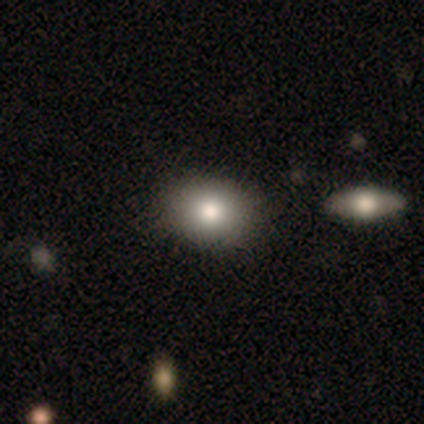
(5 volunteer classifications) Smooth or featured?
  - smooth: 60% *
  - featured or disk: 40%
  - star or artifact: 0%
How rounded?
  - round: 100% *
  - in between: 0%
  - cigar-shaped: 0%
Merging?
  - none: 100% *
  - minor disturbance: 0%
  - major disturbance: 0%
  - merger: 0%